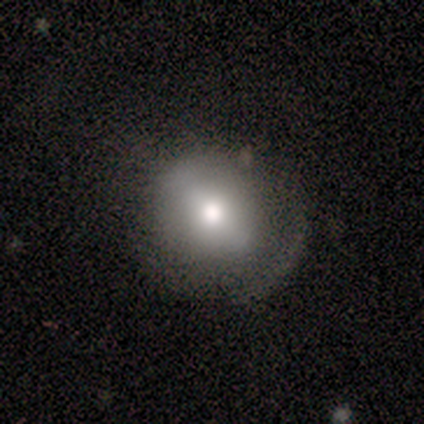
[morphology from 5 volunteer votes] Q: Smooth or featured?
A: smooth (60%); runner-up: featured or disk (40%)
Q: How rounded?
A: round (67%); runner-up: in between (33%)
Q: Merging?
A: minor disturbance (40%); tied with: major disturbance (40%)